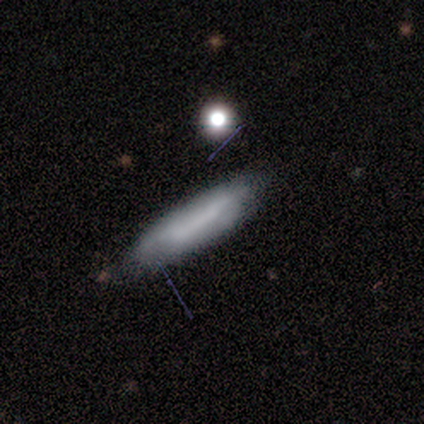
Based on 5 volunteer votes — Volunteers were most divided on "how rounded": cigar-shaped: 80%, in between: 20%, round: 0%. More confident: smooth or featured — smooth (100%); merging — none (80%).